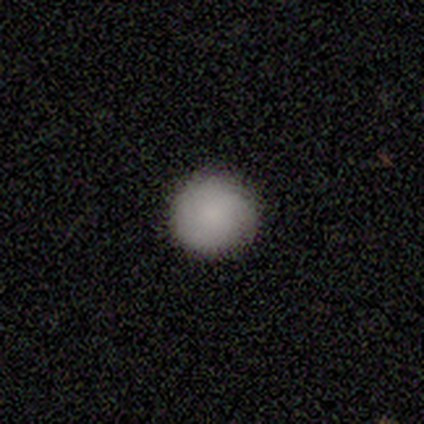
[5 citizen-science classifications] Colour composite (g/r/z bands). It shows a smooth galaxy with no disk features (40%, tied with featured or disk) that is round (100%). Merging: none (100%).